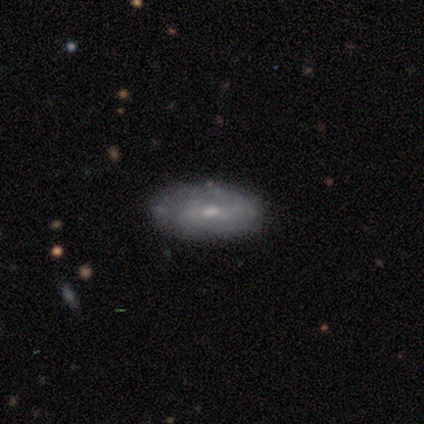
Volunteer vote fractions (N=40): Smooth or featured? featured or disk (65%)
Edge-on disk? no (96%)
Bar? no (48%)
Spiral arms? yes (76%)
Spiral winding? medium (63%)
Spiral arm count? 2 (58%)
Bulge size? small (68%)
Merging? none (75%)